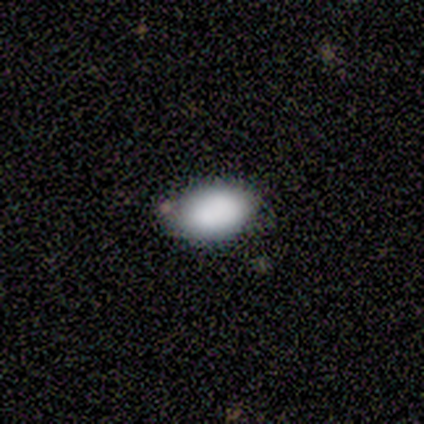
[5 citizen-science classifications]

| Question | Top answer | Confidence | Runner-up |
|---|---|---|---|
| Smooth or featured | smooth | 100% | — |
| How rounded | in between | 80% | round (20%) |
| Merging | none | 100% | — |